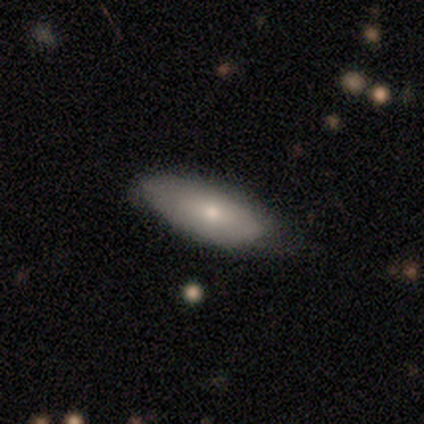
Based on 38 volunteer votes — Smooth or featured?
  - smooth: 71% *
  - featured or disk: 26%
  - star or artifact: 3%
How rounded?
  - in between: 78% *
  - cigar-shaped: 15%
  - round: 7%
Merging?
  - none: 59% *
  - minor disturbance: 32%
  - major disturbance: 8%
  - merger: 0%